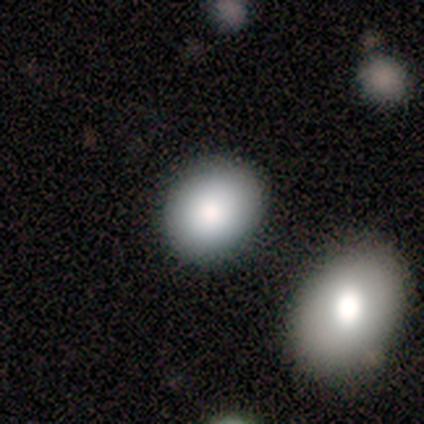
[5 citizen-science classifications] This is clearly a smooth galaxy (80%). How rounded: likely in between (75%). Merging: likely none (75%).